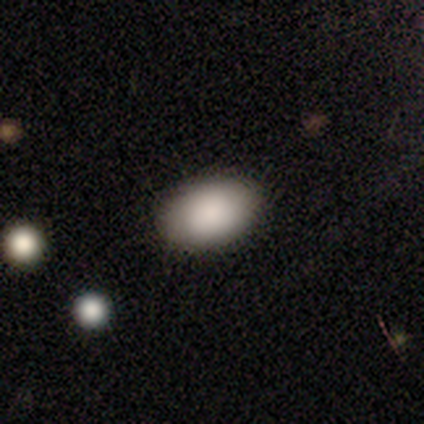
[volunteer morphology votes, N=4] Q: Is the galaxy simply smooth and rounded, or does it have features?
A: smooth — 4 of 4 (100%).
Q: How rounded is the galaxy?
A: in between — 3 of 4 (75%).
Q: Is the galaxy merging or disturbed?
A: none — 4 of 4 (100%).